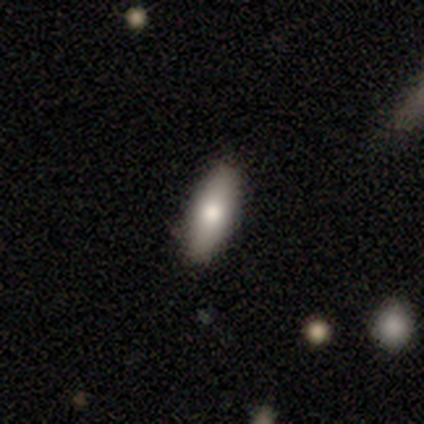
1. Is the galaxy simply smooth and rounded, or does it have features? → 83% smooth, 17% featured or disk, 0% star or artifact.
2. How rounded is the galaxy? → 80% in between, 20% cigar-shaped, 0% round.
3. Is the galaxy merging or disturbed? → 100% none, 0% minor disturbance, 0% major disturbance, 0% merger.